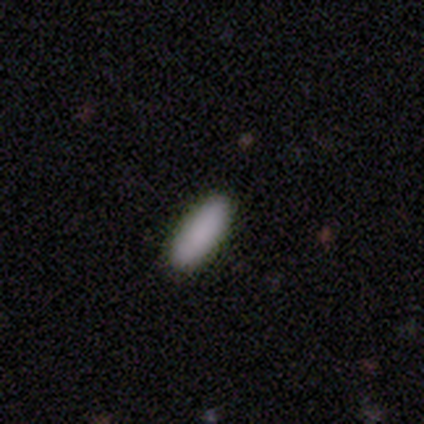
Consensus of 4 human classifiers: Q: Smooth or featured?
A: smooth (75%); runner-up: star or artifact (25%)
Q: How rounded?
A: cigar-shaped (67%); runner-up: in between (33%)
Q: Merging?
A: none (100%)